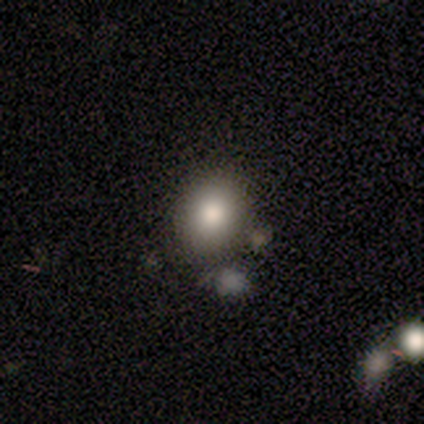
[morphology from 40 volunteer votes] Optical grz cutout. It shows a smooth galaxy with no disk features (70%) that is round (50%, tied with in between). Merging: none (71%).